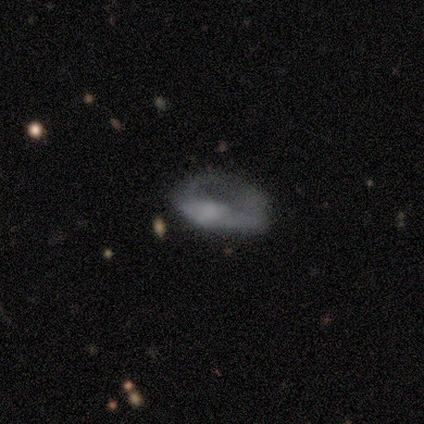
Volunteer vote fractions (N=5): This appears to be a featured or disk galaxy (80%) with no bar (75%), no spiral arms (100%) and a moderate central bulge (50%). Merging: major disturbance (80%).